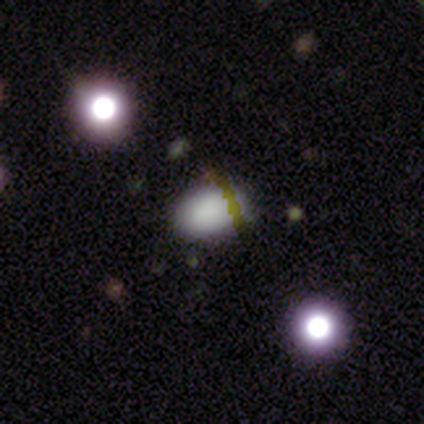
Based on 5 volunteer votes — A smooth galaxy with no disk features (100%) that is in between round and cigar-shaped (80%).

Vote fractions:
- Smooth or featured? smooth: 100% / featured or disk: 0% / star or artifact: 0%
- How rounded? in between: 80% / round: 20% / cigar-shaped: 0%
- Merging? none: 100% / minor disturbance: 0% / major disturbance: 0% / merger: 0%